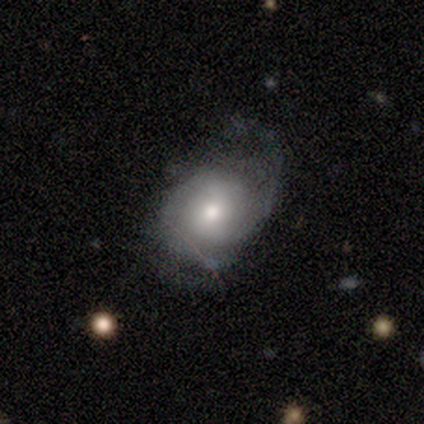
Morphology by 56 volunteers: Smooth or featured? featured or disk (66%)
Edge-on disk? no (97%)
Bar? no (75%)
Spiral arms? yes (75%)
Spiral winding? medium (37%)
Spiral arm count? 2 (63%)
Bulge size? moderate (64%)
Merging? none (45%)